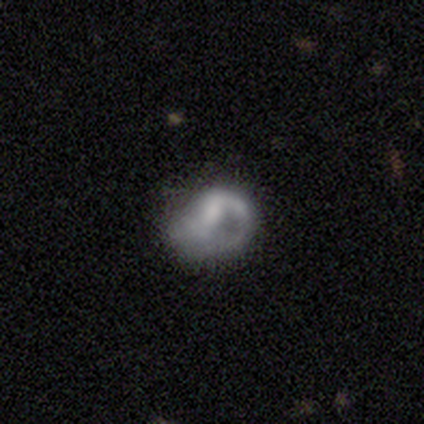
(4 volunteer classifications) Smooth or featured?
  - smooth: 75% *
  - star or artifact: 25%
  - featured or disk: 0%
How rounded?
  - in between: 100% *
  - round: 0%
  - cigar-shaped: 0%
Merging?
  - none: 33% * (tied)
  - minor disturbance: 33% * (tied)
  - major disturbance: 33% * (tied)
  - merger: 0%